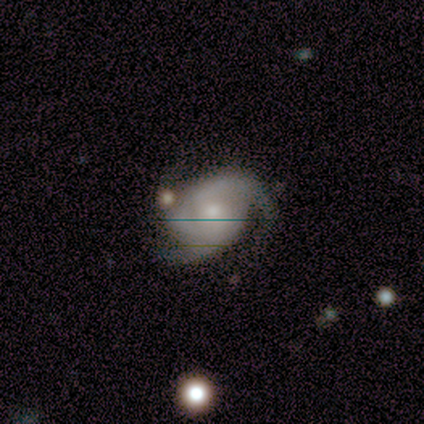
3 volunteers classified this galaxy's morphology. Smooth or featured?
  - featured or disk: 67% *
  - star or artifact: 33%
  - smooth: 0%
Edge-on disk?
  - no: 100% *
  - yes: 0%
Bar?
  - weak: 50% * (tied)
  - no: 50% * (tied)
  - strong: 0%
Spiral arms?
  - yes: 100% *
  - no: 0%
Spiral winding?
  - medium: 100% *
  - tight: 0%
  - loose: 0%
Spiral arm count?
  - 2: 50% * (tied)
  - 3: 50% * (tied)
  - 1: 0%
  - 4: 0%
  - more than 4: 0%
  - can't tell: 0%
Bulge size?
  - moderate: 50% * (tied)
  - small: 50% * (tied)
  - dominant: 0%
  - large: 0%
  - none: 0%
Merging?
  - none: 50% * (tied)
  - minor disturbance: 50% * (tied)
  - major disturbance: 0%
  - merger: 0%